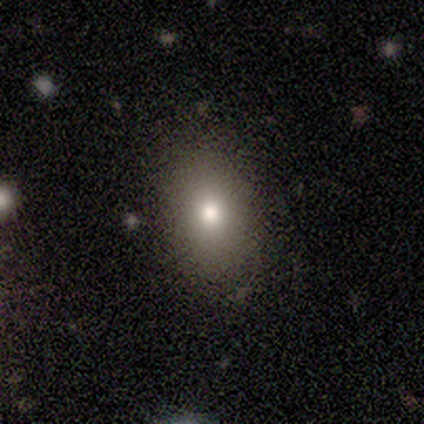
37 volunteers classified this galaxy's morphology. type=smooth (81%); roundness=in between (73%); merging=none (88%).